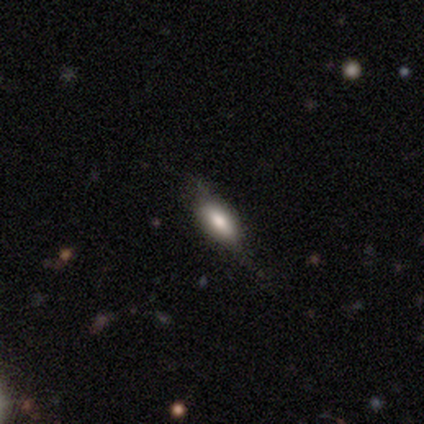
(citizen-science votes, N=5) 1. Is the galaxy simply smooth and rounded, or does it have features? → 100% smooth, 0% featured or disk, 0% star or artifact.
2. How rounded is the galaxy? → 80% in between, 20% cigar-shaped, 0% round.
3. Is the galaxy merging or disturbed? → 80% none, 20% minor disturbance, 0% major disturbance, 0% merger.